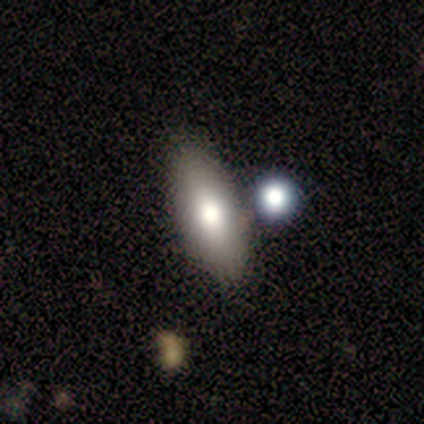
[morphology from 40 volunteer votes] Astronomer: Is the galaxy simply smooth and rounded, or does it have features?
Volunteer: smooth — 78%.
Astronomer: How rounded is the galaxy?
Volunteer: in between — 71%.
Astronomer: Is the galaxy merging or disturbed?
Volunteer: none — 53%.